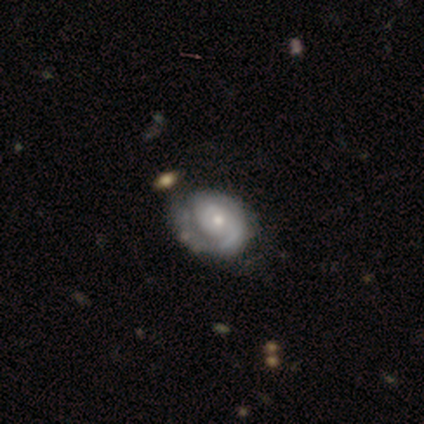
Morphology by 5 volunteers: Smooth or featured? featured or disk (100%)
Edge-on disk? no (100%)
Bar? no (60%)
Spiral arms? yes (100%)
Spiral winding? tight (60%)
Spiral arm count? 1 (60%)
Bulge size? small (60%)
Merging? major disturbance (60%)